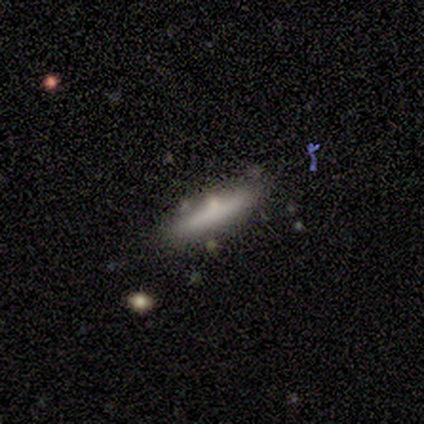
Smooth or featured?
  - smooth: 80% *
  - star or artifact: 20%
  - featured or disk: 0%
How rounded?
  - cigar-shaped: 100% *
  - round: 0%
  - in between: 0%
Merging?
  - none: 75% *
  - merger: 25%
  - minor disturbance: 0%
  - major disturbance: 0%